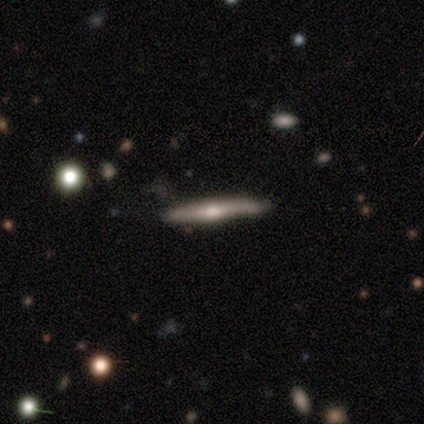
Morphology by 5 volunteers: Smooth or featured: featured or disk — 80% (smooth — 20%)
Edge-on disk: yes — 100%
Edge-on bulge: rounded — 75% (boxy — 25%)
Merging: none — 80% (merger — 20%)